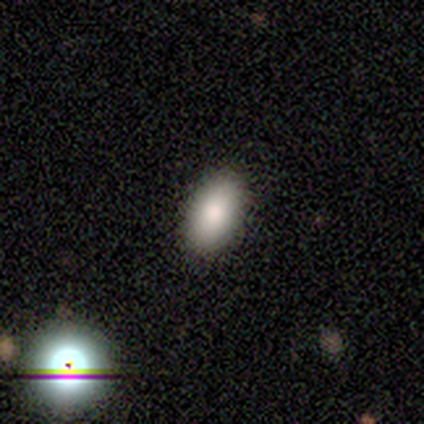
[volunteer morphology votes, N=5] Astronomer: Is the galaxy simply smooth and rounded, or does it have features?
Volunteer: smooth — 60%.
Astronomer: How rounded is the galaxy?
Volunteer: in between — 100%.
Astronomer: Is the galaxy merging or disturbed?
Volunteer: none — 75%.